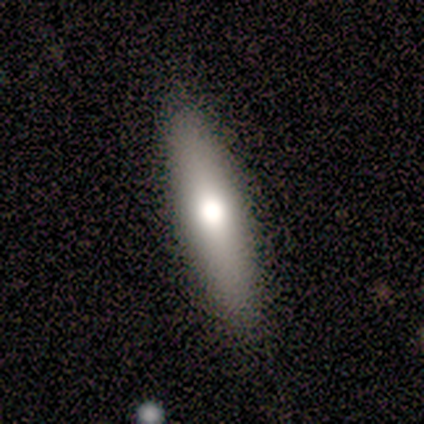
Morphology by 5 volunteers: Overall: smooth (80%). How rounded: cigar-shaped (100%). Merging: none (100%).